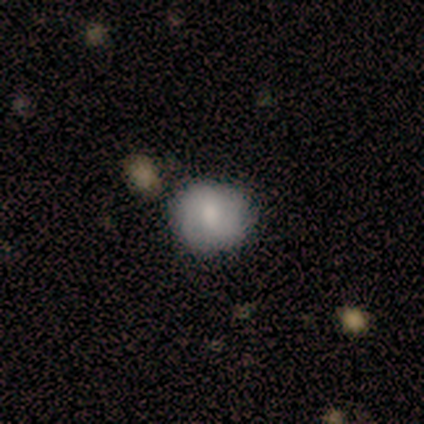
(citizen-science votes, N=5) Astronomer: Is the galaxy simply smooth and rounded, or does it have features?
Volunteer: smooth — 60% (runner-up: featured or disk, 40%).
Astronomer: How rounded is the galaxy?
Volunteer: round — 67%.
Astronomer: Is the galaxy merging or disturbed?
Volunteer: none — 80%.